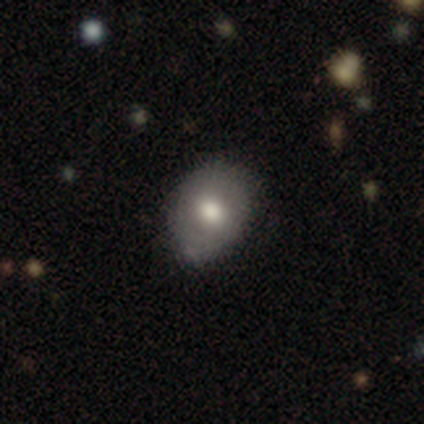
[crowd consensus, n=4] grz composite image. It shows a smooth galaxy with no disk features (75%) that is round (33%, tied with in between and cigar-shaped). Merging: none (50%, tied with minor disturbance).